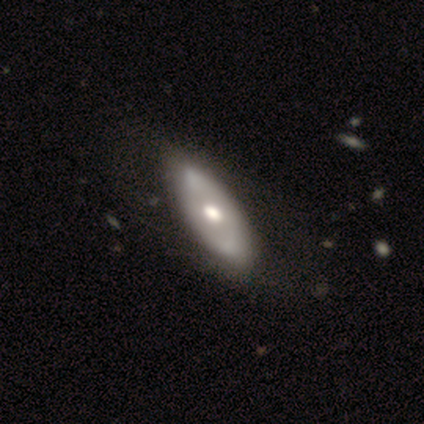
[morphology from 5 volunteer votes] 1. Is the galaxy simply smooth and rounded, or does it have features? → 80% featured or disk, 20% star or artifact, 0% smooth.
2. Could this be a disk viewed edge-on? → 100% no, 0% yes.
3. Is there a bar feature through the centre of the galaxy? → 100% no, 0% strong, 0% weak.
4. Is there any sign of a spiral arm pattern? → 75% yes, 25% no.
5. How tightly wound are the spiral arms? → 67% loose, 33% medium, 0% tight.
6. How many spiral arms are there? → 67% can't tell, 33% 2, 0% 1, 0% 3, 0% 4, 0% more than 4.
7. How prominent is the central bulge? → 100% moderate, 0% dominant, 0% large, 0% small, 0% none.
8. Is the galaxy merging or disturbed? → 100% none, 0% minor disturbance, 0% major disturbance, 0% merger.